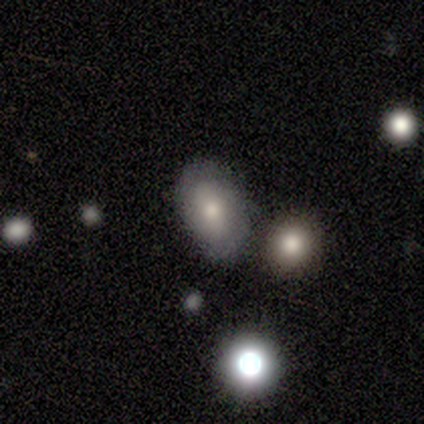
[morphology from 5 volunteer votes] Smooth or featured: featured or disk — 80% (smooth — 20%)
Edge-on disk: no — 100%
Bar: no — 75% (weak — 25%)
Spiral arms: yes — 75% (no — 25%)
Spiral winding: tight — 67% (medium — 33%)
Spiral arm count: 2 — 100%
Bulge size: moderate — 50% (tied with small — 50%)
Merging: none — 60% (minor disturbance — 40%)